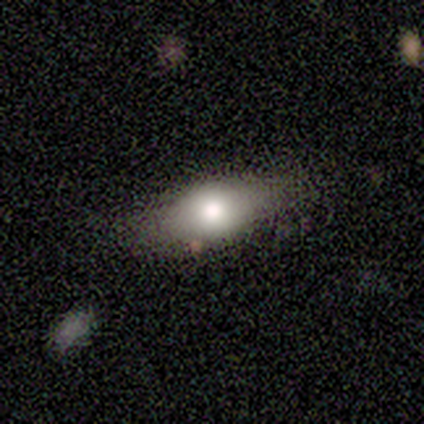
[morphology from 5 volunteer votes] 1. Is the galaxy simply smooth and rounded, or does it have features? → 60% smooth, 20% featured or disk, 20% star or artifact.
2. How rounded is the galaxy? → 100% in between, 0% round, 0% cigar-shaped.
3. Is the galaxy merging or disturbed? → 75% minor disturbance, 25% merger, 0% none, 0% major disturbance.